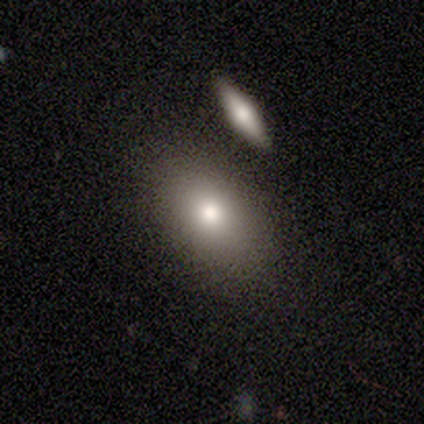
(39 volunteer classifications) smooth-or-featured: smooth: 85% | featured or disk: 8% | star or artifact: 8%
  how-rounded: in between: 85% | round: 12% | cigar-shaped: 3%
  merging: none: 50% | merger: 17% | minor disturbance: 6% | major disturbance: 0%